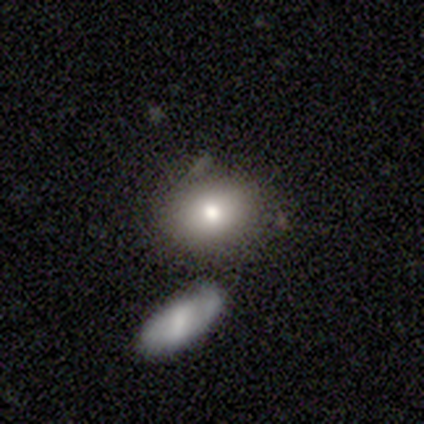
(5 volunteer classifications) smooth-or-featured: smooth: 80% | featured or disk: 20% | star or artifact: 0%
  how-rounded: in between: 75% | round: 25% | cigar-shaped: 0%
  merging: none: 60% | minor disturbance: 40% | major disturbance: 0% | merger: 0%